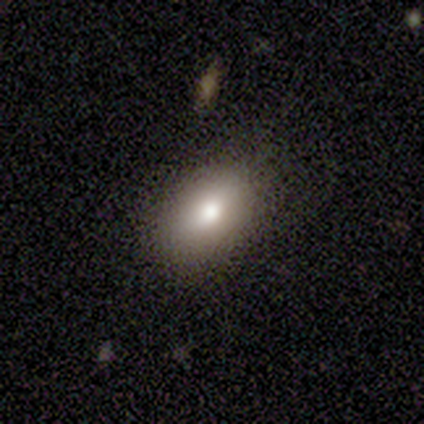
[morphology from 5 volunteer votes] Volunteers were most divided on "how rounded": in between: 60%, round: 40%, cigar-shaped: 0%. More confident: smooth or featured — smooth (100%); merging — none (80%).